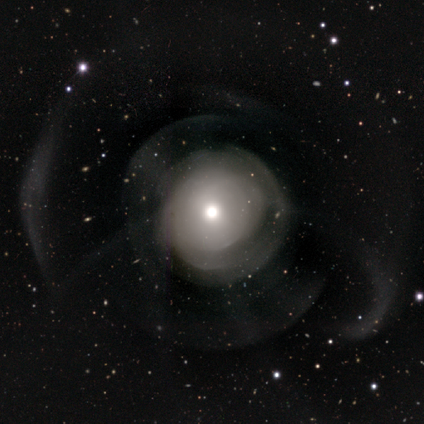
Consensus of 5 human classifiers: smooth_or_featured: featured or disk (p=0.80) [alt: smooth p=0.20]
disk_edge_on: no (p=1.00)
bar: no (p=1.00)
has_spiral_arms: no (p=0.75) [alt: yes p=0.25]
bulge_size: moderate (p=0.50) [tied with: small p=0.50]
merging: major disturbance (p=0.80) [alt: minor disturbance p=0.20]